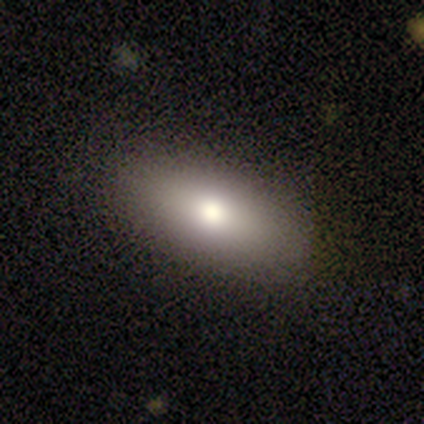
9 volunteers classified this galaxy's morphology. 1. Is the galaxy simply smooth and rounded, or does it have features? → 67% smooth, 22% featured or disk, 11% star or artifact.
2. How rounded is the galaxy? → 100% in between, 0% round, 0% cigar-shaped.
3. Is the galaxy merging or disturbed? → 100% none, 0% minor disturbance, 0% major disturbance, 0% merger.